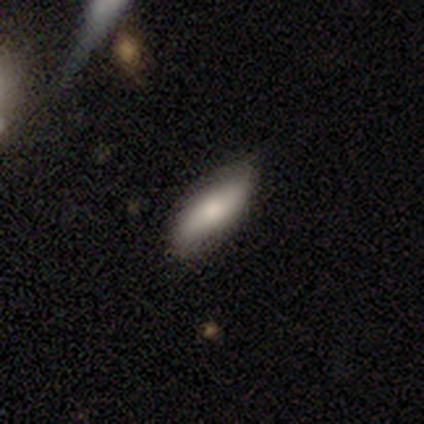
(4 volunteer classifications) Overall: smooth (75%). How rounded: in between (67%; cigar-shaped 33%). Merging: none (100%).